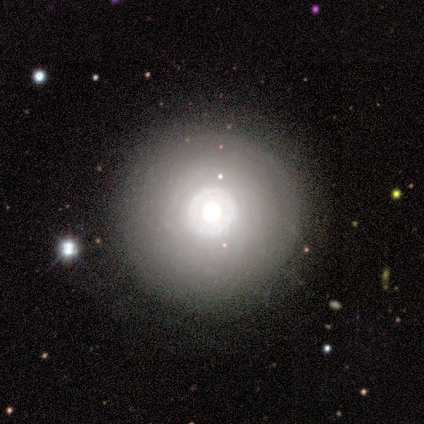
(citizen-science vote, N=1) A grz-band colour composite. It shows a featured or disk galaxy (100%) with no bar (100%), 3 (100%) tight (100%) spiral arms (100%) and a moderate central bulge (100%). Merging: none (100%).